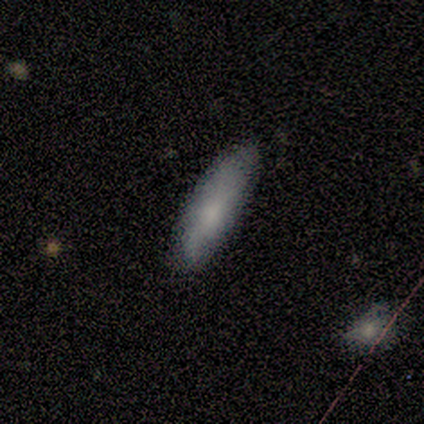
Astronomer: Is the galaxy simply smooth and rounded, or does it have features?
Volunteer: smooth — 50%, tied with featured or disk at 50%.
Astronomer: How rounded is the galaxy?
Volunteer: in between — 100%.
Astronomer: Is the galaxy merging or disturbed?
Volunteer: none — 100%.